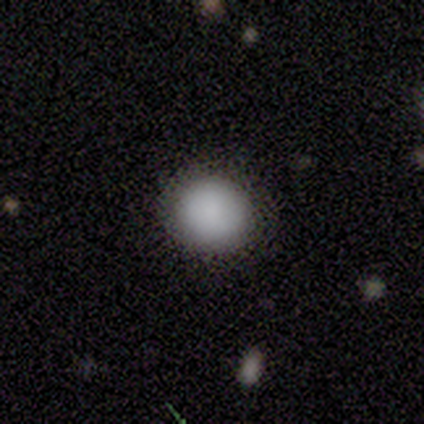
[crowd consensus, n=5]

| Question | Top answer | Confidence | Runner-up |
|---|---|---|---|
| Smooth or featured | smooth | 100% | — |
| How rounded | round | 80% | in between (20%) |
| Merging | none | 80% | minor disturbance (20%) |